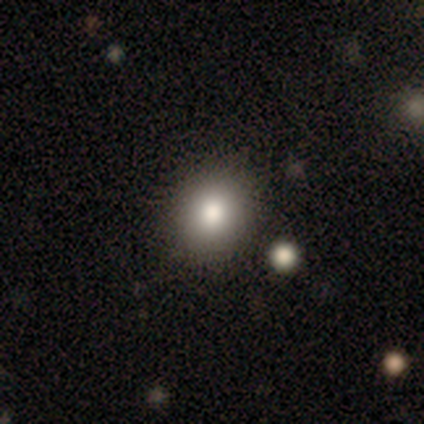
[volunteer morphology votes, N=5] smooth_or_featured: smooth (p=1.00)
how_rounded: round (p=0.80) [alt: in between p=0.20]
merging: none (p=1.00)